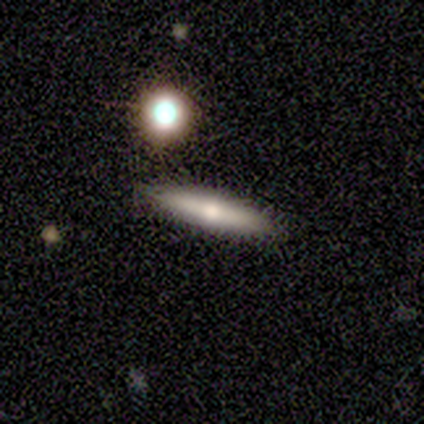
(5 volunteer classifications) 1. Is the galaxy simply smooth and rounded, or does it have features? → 100% smooth, 0% featured or disk, 0% star or artifact.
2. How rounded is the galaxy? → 100% cigar-shaped, 0% round, 0% in between.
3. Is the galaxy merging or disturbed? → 100% none, 0% minor disturbance, 0% major disturbance, 0% merger.